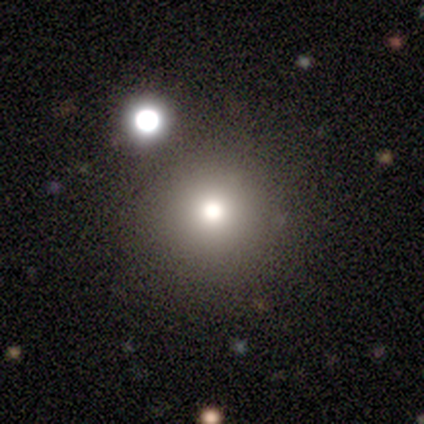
smooth 69%, star or artifact 22%, featured or disk 10%. Down the decision tree: how rounded — round (98%); merging — none (92%).